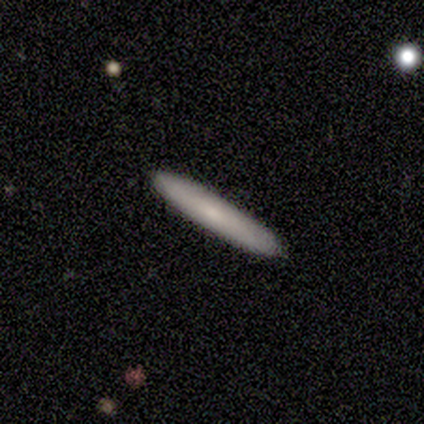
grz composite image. It shows a featured or disk galaxy (60%) with no bar (100%), no spiral arms (100%) and a small central bulge (100%). Merging: none (100%).